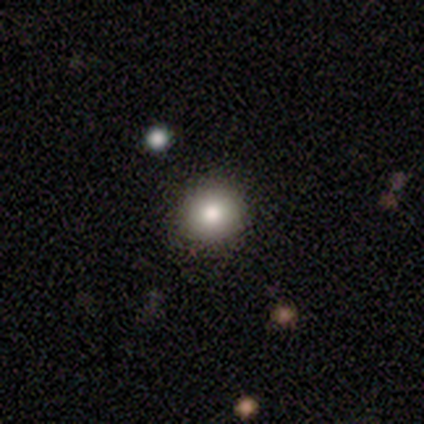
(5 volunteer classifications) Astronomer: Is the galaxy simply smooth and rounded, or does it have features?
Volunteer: smooth — 60%.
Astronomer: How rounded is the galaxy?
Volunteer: round — 100%.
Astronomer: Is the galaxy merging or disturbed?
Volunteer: none — 100%.